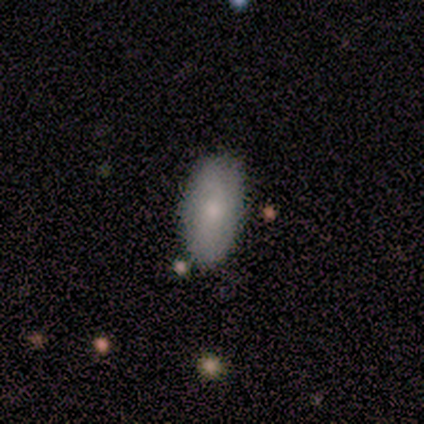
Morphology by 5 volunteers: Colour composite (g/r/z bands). It shows a featured or disk galaxy (60%) with a weak bar (67%), no spiral arms (67%) and a small central bulge (67%). Merging: none (80%).